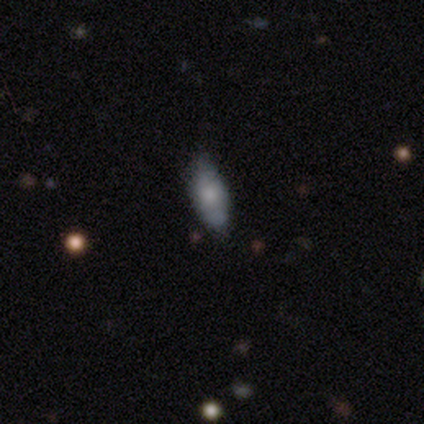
Morphology: type=smooth (50%, tied with featured or disk); roundness=cigar-shaped (100%); merging=none (50%, tied with minor disturbance).